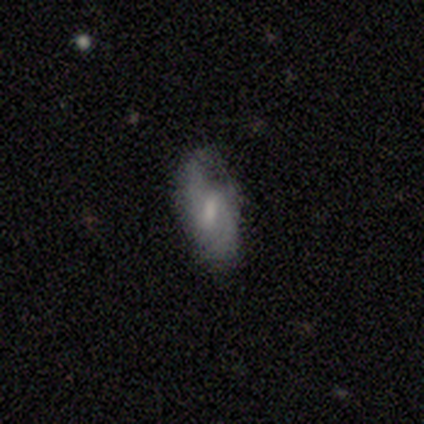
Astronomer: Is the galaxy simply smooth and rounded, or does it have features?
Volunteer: featured or disk — 100%.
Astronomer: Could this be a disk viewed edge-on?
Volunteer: no — 100%.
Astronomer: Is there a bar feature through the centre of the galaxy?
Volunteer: weak — 67%.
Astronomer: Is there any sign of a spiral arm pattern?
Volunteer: yes — 100%.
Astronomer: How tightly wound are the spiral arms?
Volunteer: loose — 100%.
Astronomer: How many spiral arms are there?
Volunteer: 2 — 100%.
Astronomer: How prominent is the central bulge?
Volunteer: small — 67%.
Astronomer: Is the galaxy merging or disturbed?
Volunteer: minor disturbance — 67%.